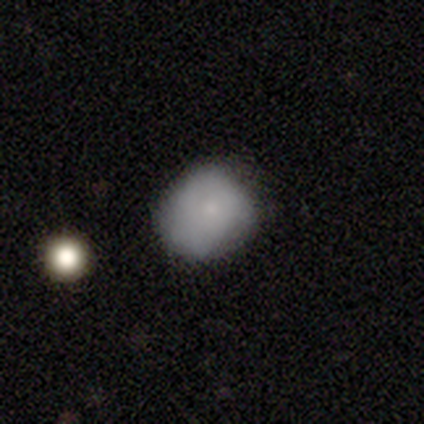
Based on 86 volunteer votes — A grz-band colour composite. It shows a smooth galaxy with no disk features (80%) that is round (75%). Merging: none (60%).